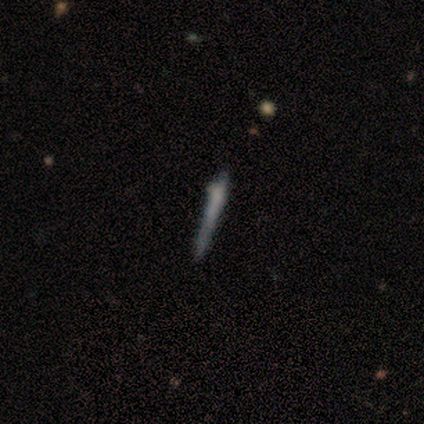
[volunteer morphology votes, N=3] smooth_or_featured: smooth (p=0.33) [tied with: featured or disk p=0.33, star or artifact p=0.33]
how_rounded: cigar-shaped (p=1.00)
merging: none (p=0.50) [tied with: merger p=0.50]